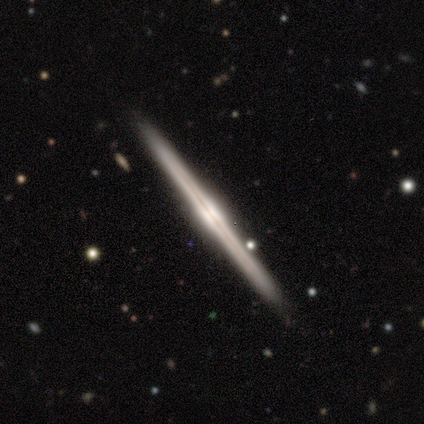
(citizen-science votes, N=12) A featured or disk galaxy (92%) viewed edge-on (100%) with a rounded central bulge (45%). Merging: none (91%).